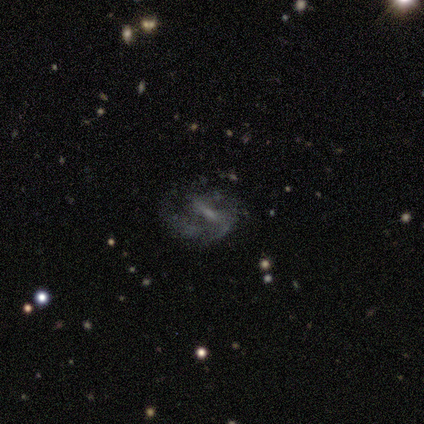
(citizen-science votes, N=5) Morphology: type=featured or disk (100%); edge-on=no (100%); bar=weak (40%, tied with no); spiral arms=yes (100%); winding=loose (80%); arm count=2 (80%); bulge=small (60%); merging=none (40%, tied with major disturbance).